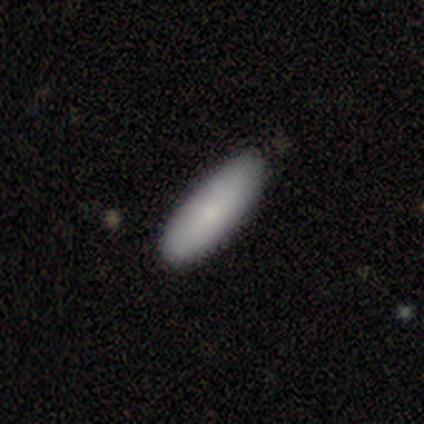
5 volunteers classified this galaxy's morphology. Consensus on every question: smooth or featured — smooth (100%); how rounded — in between (100%); merging — none (100%).